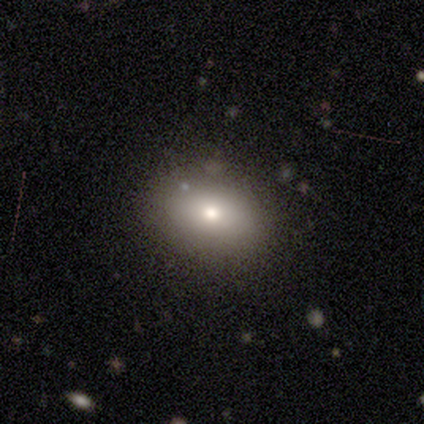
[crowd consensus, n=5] Volunteers were most divided on "edge-on bulge" (2-way tie): boxy: 50%, rounded: 50%, none: 0%. More confident: edge-on disk — yes (67%); smooth or featured — featured or disk (60%); merging — none (60%).